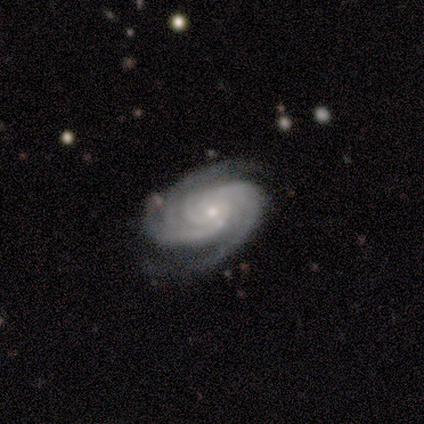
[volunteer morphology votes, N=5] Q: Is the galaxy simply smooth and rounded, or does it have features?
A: featured or disk — 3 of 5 (60%).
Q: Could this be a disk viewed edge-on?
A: no — 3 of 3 (100%).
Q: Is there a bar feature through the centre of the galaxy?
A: weak — 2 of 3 (67%).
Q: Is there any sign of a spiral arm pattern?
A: yes — 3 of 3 (100%).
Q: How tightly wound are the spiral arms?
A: tight — 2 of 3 (67%).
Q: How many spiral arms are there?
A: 2 — 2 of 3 (67%).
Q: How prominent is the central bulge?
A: small — 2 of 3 (67%).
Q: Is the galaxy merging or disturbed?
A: none — 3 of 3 (100%).